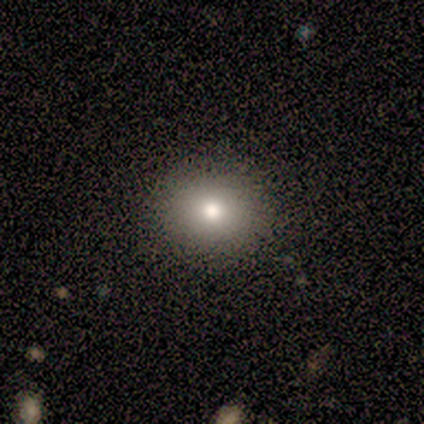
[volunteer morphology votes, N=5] Overall: smooth (100%). How rounded: round (100%). Merging: none (80%).